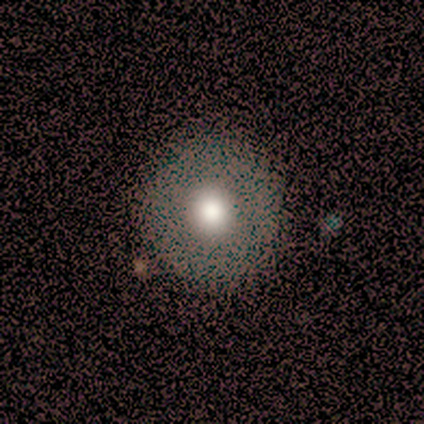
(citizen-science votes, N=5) Overall: smooth (80%). How rounded: round (75%). Merging: none (80%).